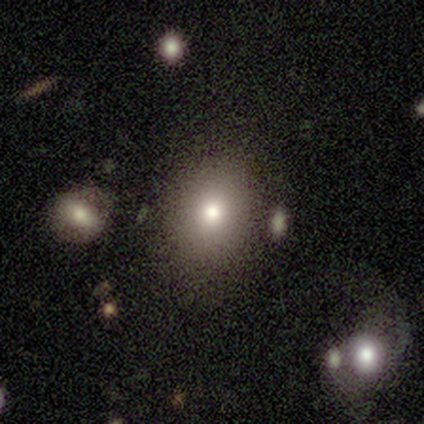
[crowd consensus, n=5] A smooth galaxy with no disk features (80%) that is in between round and cigar-shaped (75%).

Vote fractions:
- Smooth or featured? smooth: 80% / featured or disk: 20% / star or artifact: 0%
- How rounded? in between: 75% / round: 25% / cigar-shaped: 0%
- Merging? none: 80% / minor disturbance: 20% / major disturbance: 0% / merger: 0%